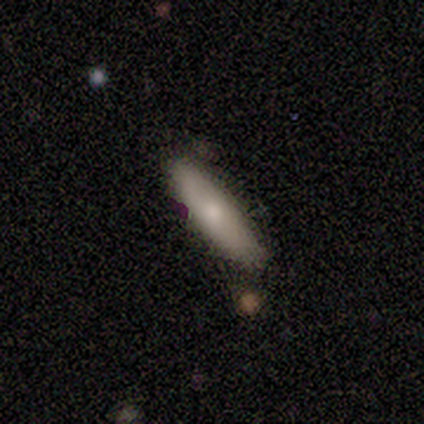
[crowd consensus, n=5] smooth_or_featured: smooth (p=0.80) [alt: star or artifact p=0.20]
how_rounded: cigar-shaped (p=0.75) [alt: in between p=0.25]
merging: none (p=1.00)